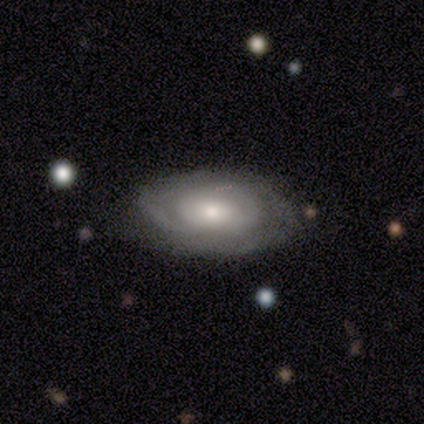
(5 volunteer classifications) Smooth or featured? featured or disk (100%)
Edge-on disk? no (80%)
Bar? no (100%)
Spiral arms? yes (100%)
Spiral winding? tight (75%)
Spiral arm count? can't tell (75%)
Bulge size? moderate (75%)
Merging? none (60%)